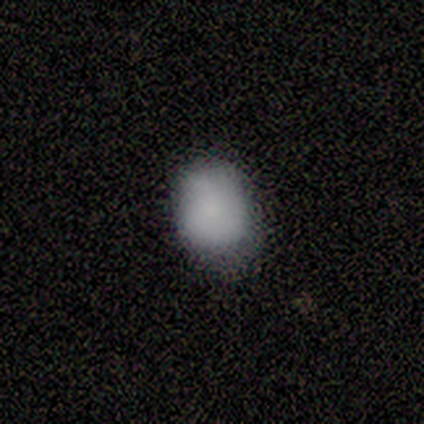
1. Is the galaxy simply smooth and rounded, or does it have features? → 100% smooth, 0% featured or disk, 0% star or artifact.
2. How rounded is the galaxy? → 100% round, 0% in between, 0% cigar-shaped.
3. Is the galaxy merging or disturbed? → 75% none, 25% minor disturbance, 0% major disturbance, 0% merger.